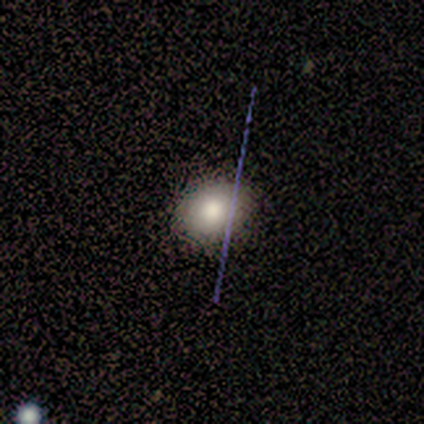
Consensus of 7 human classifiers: Smooth or featured: smooth — 57% (featured or disk — 29%)
How rounded: round — 50% (tied with in between — 50%)
Merging: none — 100%